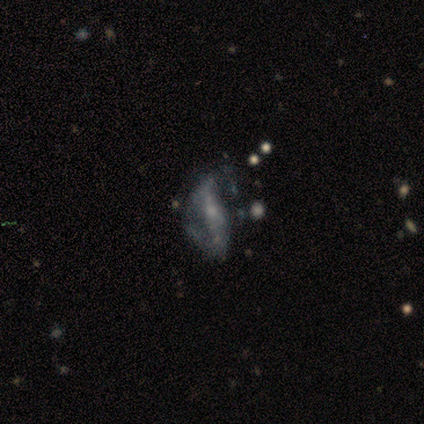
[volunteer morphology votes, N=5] Overall: featured or disk (100%). Edge-on disk: no (100%). Bar: weak (60%; no 40%). Spiral arms: yes (60%; no 40%). Spiral arm count: 2 (67%; 1 33%). Spiral winding: medium (100%). Bulge size: small (80%). Merging: none (40%, tied with major disturbance).